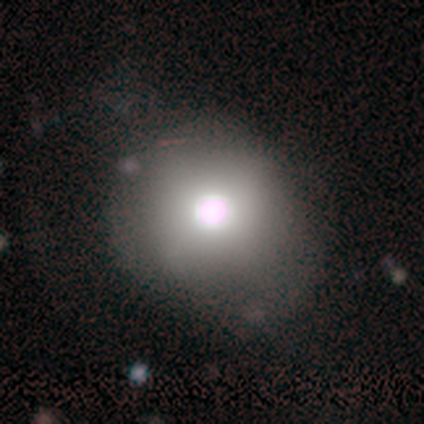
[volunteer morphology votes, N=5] This appears to be a smooth galaxy with no disk features (60%) that is round (100%). Merging: none (50%).